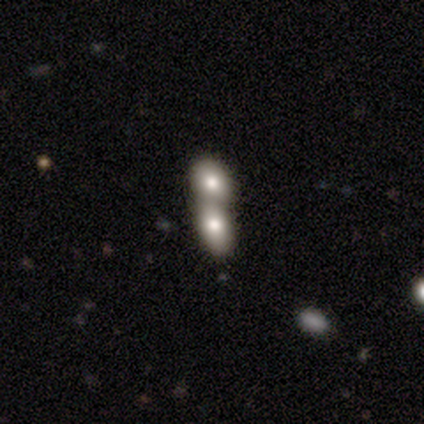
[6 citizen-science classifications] A smooth galaxy with no disk features (50%) that is in between round and cigar-shaped (67%). Merging: merger (100%).